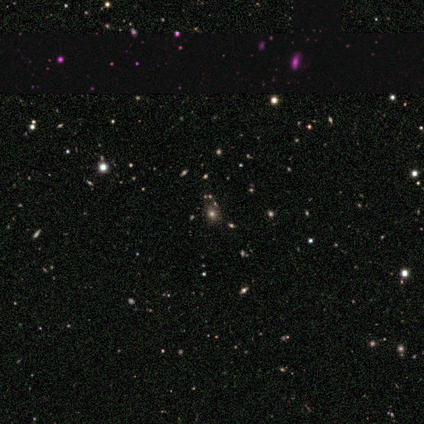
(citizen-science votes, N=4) smooth-or-featured: star or artifact: 75% | smooth: 25% | featured or disk: 0%